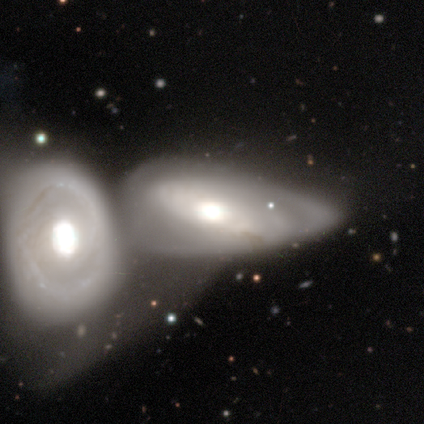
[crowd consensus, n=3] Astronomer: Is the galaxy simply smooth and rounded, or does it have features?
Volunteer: featured or disk — 67%.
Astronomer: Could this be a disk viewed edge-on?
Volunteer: no — 100%.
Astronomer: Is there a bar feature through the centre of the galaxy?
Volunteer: strong — 50%, tied with no at 50%.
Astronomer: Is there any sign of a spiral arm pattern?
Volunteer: no — 100%.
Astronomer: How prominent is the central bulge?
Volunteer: large — 50%, tied with moderate at 50%.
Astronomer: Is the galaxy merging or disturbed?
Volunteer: merger — 67%.